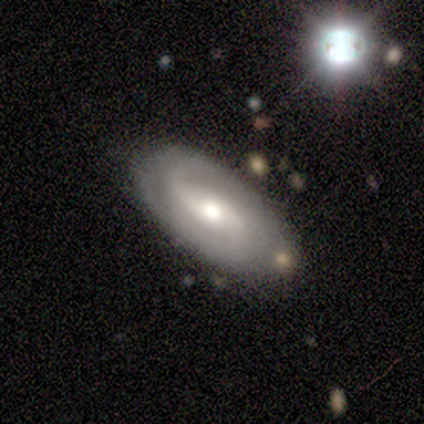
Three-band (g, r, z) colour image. It shows a featured or disk galaxy (83%) with a strong bar (33%, tied with weak and no), 2 (66%) tight (44%, tied with medium) spiral arms (97%) and a moderate central bulge (67%). Merging: none (71%).